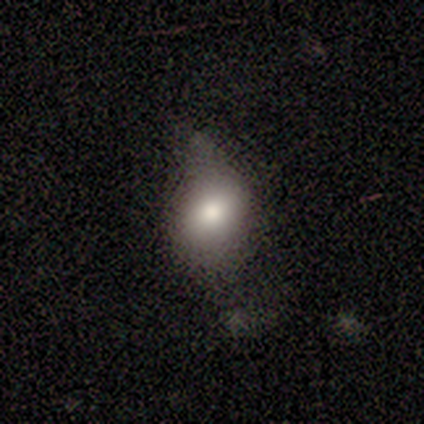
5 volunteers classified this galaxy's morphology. smooth-or-featured: smooth: 40% (tied) | star or artifact: 40% (tied) | featured or disk: 20%
  how-rounded: in between: 100% | round: 0% | cigar-shaped: 0%
  merging: none: 67% | minor disturbance: 33% | major disturbance: 0% | merger: 0%